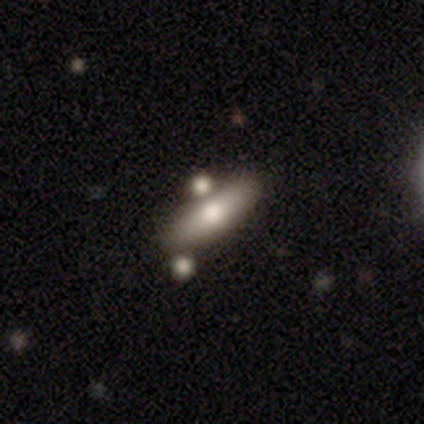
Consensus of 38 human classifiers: A smooth galaxy with no disk features (58%) that is cigar-shaped (59%).

Vote fractions:
- Smooth or featured? smooth: 58% / featured or disk: 34% / star or artifact: 8%
- How rounded? cigar-shaped: 59% / in between: 36% / round: 5%
- Merging? none: 69% / merger: 23% / minor disturbance: 9% / major disturbance: 0%